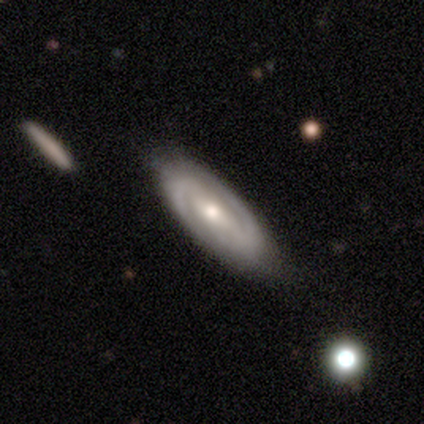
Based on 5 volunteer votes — Volunteers were most divided on "spiral winding" (2-way tie): tight: 50%, medium: 50%, loose: 0%. More confident: spiral arm count — 2 (100%); smooth or featured — featured or disk (80%); edge-on disk — no (75%); merging — none (75%); bar — weak (67%); spiral arms — yes (67%); bulge size — moderate (67%).